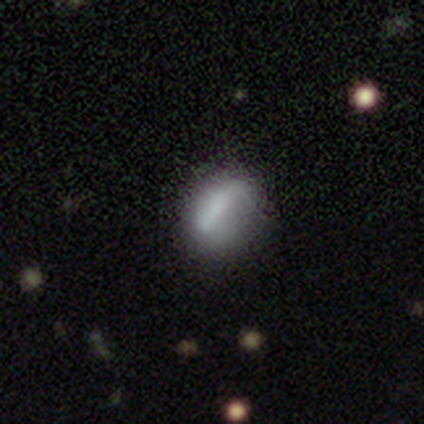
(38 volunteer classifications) smooth-or-featured: smooth: 50% | featured or disk: 39% | star or artifact: 11%
  how-rounded: in between: 74% | round: 26% | cigar-shaped: 0%
  merging: none: 24% | minor disturbance: 21% | major disturbance: 15% | merger: 3%